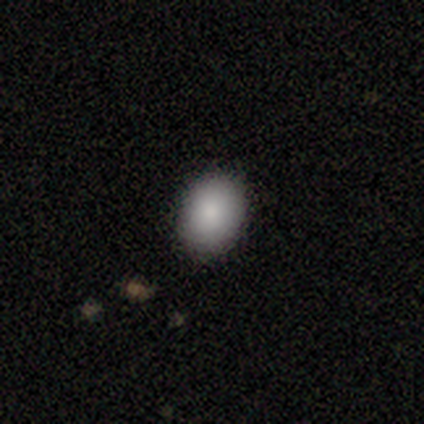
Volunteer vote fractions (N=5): Volunteers were most divided on "how rounded": round: 80%, in between: 20%, cigar-shaped: 0%. More confident: smooth or featured — smooth (100%); merging — none (100%).